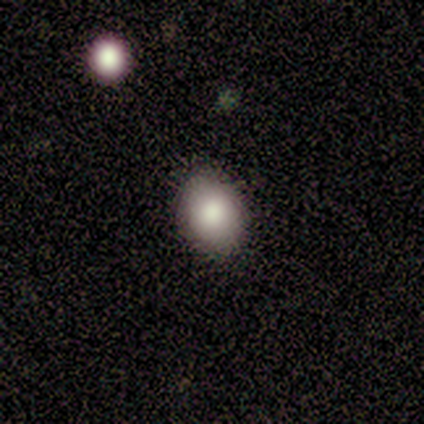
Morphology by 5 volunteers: type=smooth (100%); roundness=in between (60%); merging=none (100%).